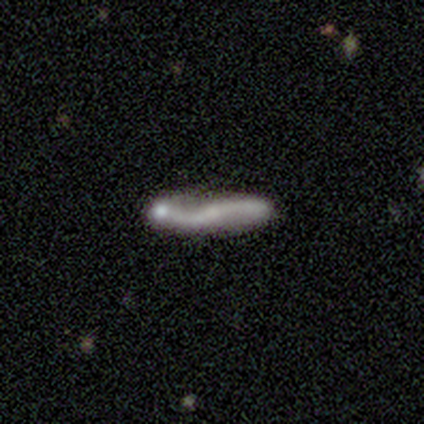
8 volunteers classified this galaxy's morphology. A featured or disk galaxy (75%) viewed edge-on (67%) with no central bulge (50%, tied with rounded). Merging: major disturbance (50%).